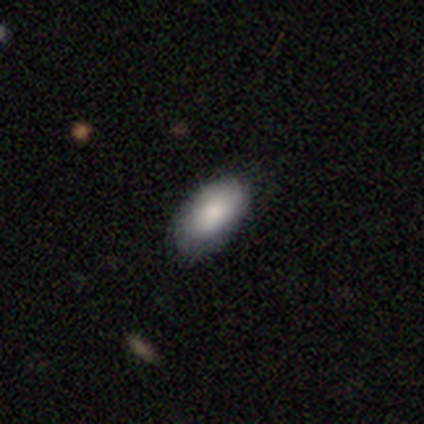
smooth_or_featured: smooth (p=0.87) [alt: featured or disk p=0.11]
how_rounded: in between (p=0.97) [alt: round p=0.03]
merging: none (p=0.76) [alt: minor disturbance p=0.19]